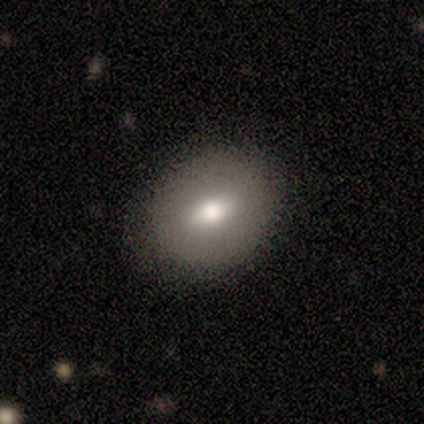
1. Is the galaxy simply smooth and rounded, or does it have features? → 75% smooth, 25% featured or disk, 0% star or artifact.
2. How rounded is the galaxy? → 67% round, 33% in between, 0% cigar-shaped.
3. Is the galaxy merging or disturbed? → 100% none, 0% minor disturbance, 0% major disturbance, 0% merger.